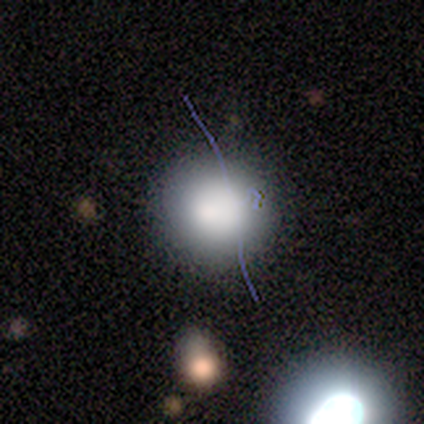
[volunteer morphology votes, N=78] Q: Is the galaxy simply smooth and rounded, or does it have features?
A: smooth — 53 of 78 (68%).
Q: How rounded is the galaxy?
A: round — 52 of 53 (98%).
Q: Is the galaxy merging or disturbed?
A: none — 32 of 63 (51%).